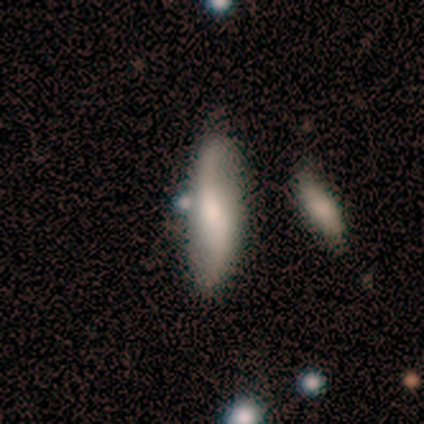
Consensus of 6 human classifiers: smooth-or-featured: featured or disk: 67% | smooth: 33% | star or artifact: 0%
  disk-edge-on: no: 100% | yes: 0%
    bar: no: 75% | weak: 25% | strong: 0%
    has-spiral-arms: yes: 100% | no: 0%
      spiral-winding: loose: 75% | medium: 25% | tight: 0%
      spiral-arm-count: 2: 100% | 1: 0% | 3: 0% | 4: 0% | more than 4: 0% | can't tell: 0%
    bulge-size: moderate: 50% (tied) | small: 50% (tied) | dominant: 0% | large: 0% | none: 0%
  merging: none: 83% | minor disturbance: 17% | major disturbance: 0% | merger: 0%